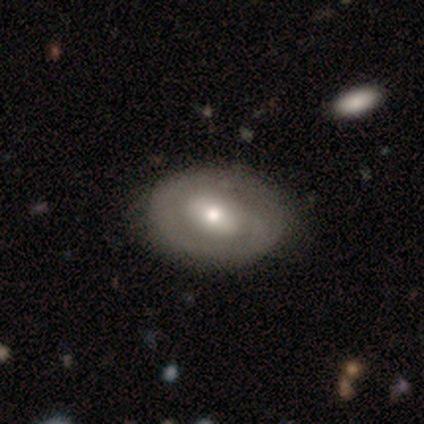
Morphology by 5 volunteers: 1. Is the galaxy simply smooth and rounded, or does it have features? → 80% featured or disk, 20% smooth, 0% star or artifact.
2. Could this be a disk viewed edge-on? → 100% no, 0% yes.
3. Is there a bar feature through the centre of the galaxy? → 75% no, 25% strong, 0% weak.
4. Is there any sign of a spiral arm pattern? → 50% yes (tied), 50% no (tied).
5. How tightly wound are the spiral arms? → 100% tight, 0% medium, 0% loose.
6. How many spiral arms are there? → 50% 1 (tied), 50% can't tell (tied), 0% 2, 0% 3, 0% 4, 0% more than 4.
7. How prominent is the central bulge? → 100% moderate, 0% dominant, 0% large, 0% small, 0% none.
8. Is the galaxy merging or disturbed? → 60% none, 40% minor disturbance, 0% major disturbance, 0% merger.